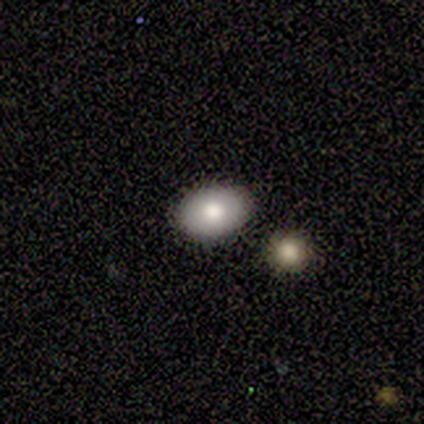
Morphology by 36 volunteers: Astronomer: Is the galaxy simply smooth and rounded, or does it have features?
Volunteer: smooth — 78%.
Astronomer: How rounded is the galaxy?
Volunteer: in between — 89%.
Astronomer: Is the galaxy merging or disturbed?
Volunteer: none — 71%.